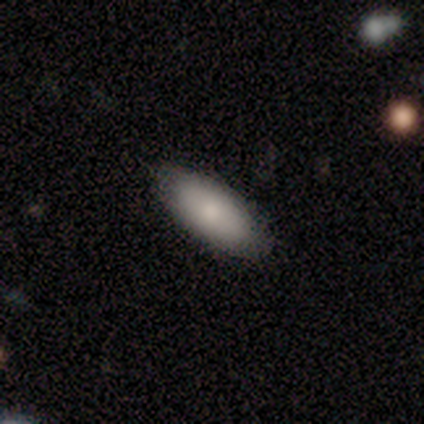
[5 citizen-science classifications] A smooth galaxy with no disk features (100%) that is in between round and cigar-shaped (80%).

Vote fractions:
- Smooth or featured? smooth: 100% / featured or disk: 0% / star or artifact: 0%
- How rounded? in between: 80% / cigar-shaped: 20% / round: 0%
- Merging? none: 100% / minor disturbance: 0% / major disturbance: 0% / merger: 0%